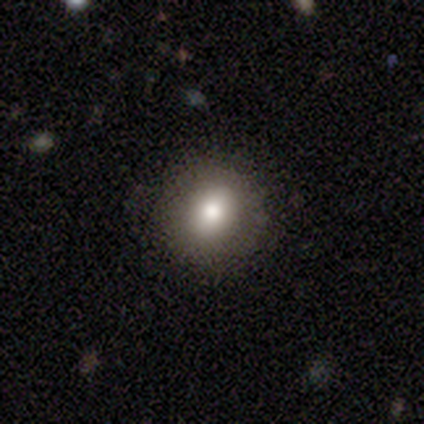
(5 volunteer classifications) Overall: smooth (60%; featured or disk 40%). How rounded: round (100%). Merging: none (100%).